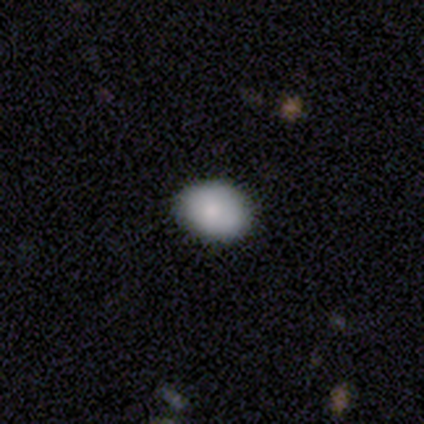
This is clearly a smooth galaxy (98%). How rounded: likely in between (79%). Merging: clearly none (90%).